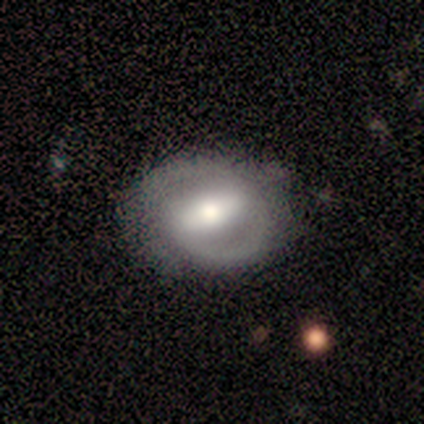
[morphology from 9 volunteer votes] featured or disk 89%, smooth 11%, star or artifact 0%. Down the decision tree: edge-on disk — no (75%); bar — strong (50%); spiral arms — yes (50%, tied with no); spiral arm count — 2 (100%); spiral winding — medium (67%); bulge size — moderate (67%); merging — none (89%).